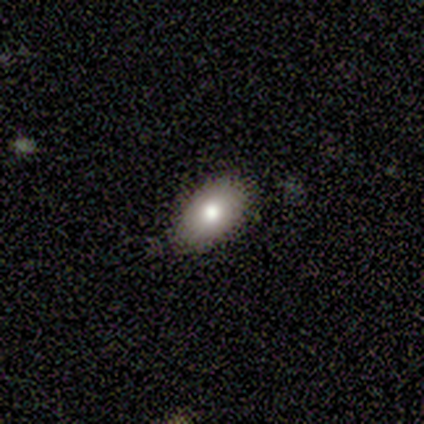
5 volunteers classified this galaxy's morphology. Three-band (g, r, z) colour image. It shows a smooth galaxy with no disk features (60%) that is in between round and cigar-shaped (100%). Merging: none (100%).